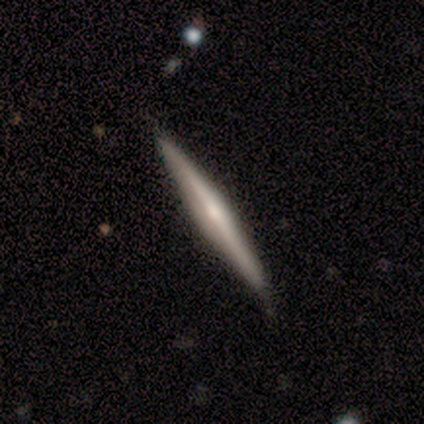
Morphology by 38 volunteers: A featured or disk galaxy (63%) viewed edge-on (100%) with a rounded central bulge (67%).

Vote fractions:
- Smooth or featured? featured or disk: 63% / smooth: 29% / star or artifact: 8%
- Edge-on disk? yes: 100% / no: 0%
- Edge-on bulge? rounded: 67% / boxy: 21% / none: 12%
- Merging? none: 89% / minor disturbance: 11% / major disturbance: 0% / merger: 0%